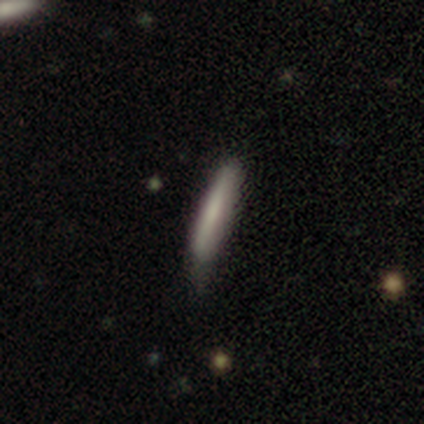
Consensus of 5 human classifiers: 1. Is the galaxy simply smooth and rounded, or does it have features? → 40% smooth (tied), 40% featured or disk (tied), 20% star or artifact.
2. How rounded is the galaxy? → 100% cigar-shaped, 0% round, 0% in between.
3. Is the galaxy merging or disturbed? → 50% none (tied), 50% minor disturbance (tied), 0% major disturbance, 0% merger.